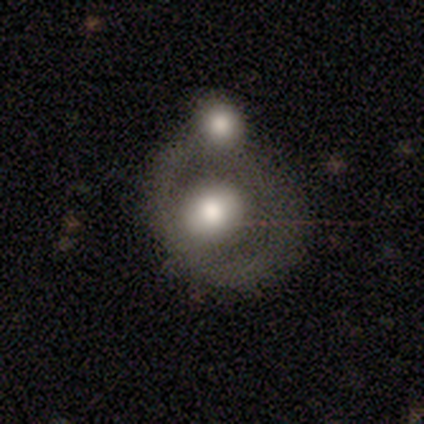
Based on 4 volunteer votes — Smooth or featured: featured or disk — 75% (smooth — 25%)
Edge-on disk: no — 100%
Bar: no — 100%
Spiral arms: no — 100%
Bulge size: moderate — 100%
Merging: merger — 75% (minor disturbance — 25%)